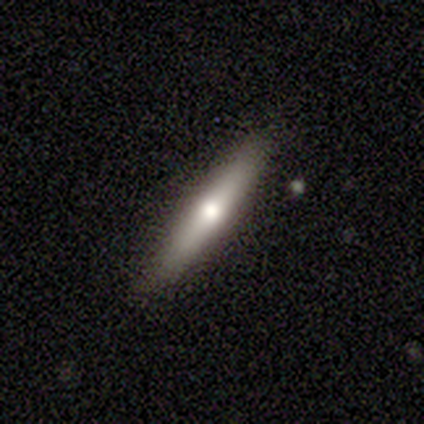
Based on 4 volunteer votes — Smooth or featured? featured or disk (100%)
Edge-on disk? yes (100%)
Edge-on bulge? rounded (100%)
Merging? none (75%)